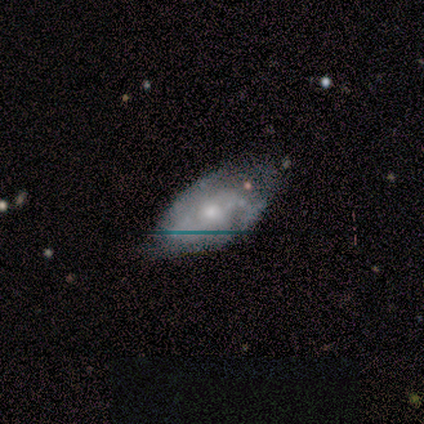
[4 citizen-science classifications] A featured or disk galaxy (100%) with no bar (100%), medium (67%) spiral arms (75%) and a moderate central bulge (50%, tied with small). Merging: minor disturbance (75%).